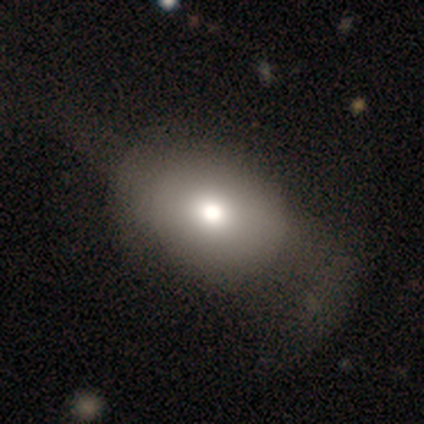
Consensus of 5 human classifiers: A smooth galaxy with no disk features (60%) that is round (67%).

Vote fractions:
- Smooth or featured? smooth: 60% / featured or disk: 40% / star or artifact: 0%
- How rounded? round: 67% / in between: 33% / cigar-shaped: 0%
- Merging? none: 80% / minor disturbance: 20% / major disturbance: 0% / merger: 0%